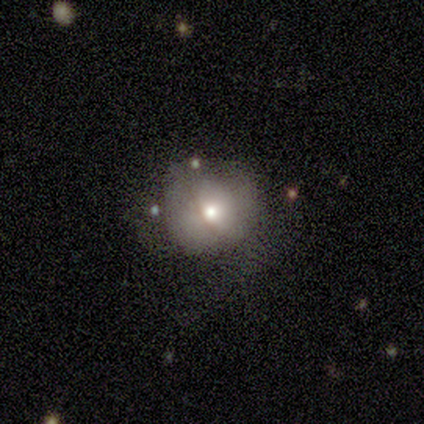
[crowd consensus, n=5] Overall: smooth (100%). How rounded: round (100%). Merging: none (60%; minor disturbance 20%).